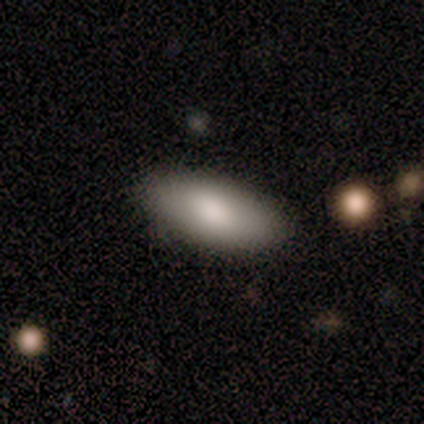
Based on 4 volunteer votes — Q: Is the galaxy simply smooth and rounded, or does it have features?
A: smooth — 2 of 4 (50%, tied with featured or disk).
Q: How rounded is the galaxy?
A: in between — 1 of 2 (50%, tied with cigar-shaped).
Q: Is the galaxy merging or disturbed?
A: minor disturbance — 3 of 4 (75%).